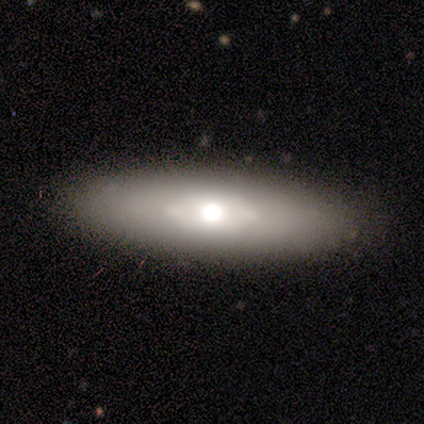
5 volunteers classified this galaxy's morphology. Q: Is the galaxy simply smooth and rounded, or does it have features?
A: smooth — 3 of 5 (60%).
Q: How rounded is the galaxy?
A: in between — 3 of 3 (100%).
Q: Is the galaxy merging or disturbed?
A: none — 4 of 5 (80%).